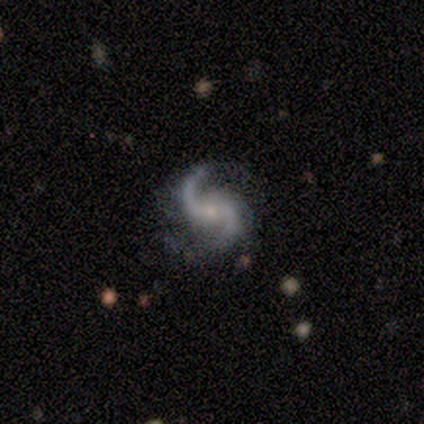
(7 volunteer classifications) Smooth or featured? 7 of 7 (100%) said featured or disk. Edge-on disk? 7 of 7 (100%) said no. Bar? 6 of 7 (86%) said no. Spiral arms? 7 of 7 (100%) said yes. Spiral winding? 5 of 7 (71%) said loose. Spiral arm count? 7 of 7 (100%) said 2. Bulge size? 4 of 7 (57%) said small. Merging? 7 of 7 (100%) said none.